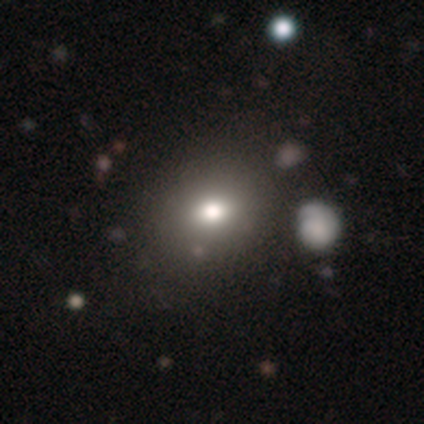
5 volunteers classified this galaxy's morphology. This is clearly a smooth galaxy (80%). How rounded: likely in between (75%). Merging: clearly none (100%).